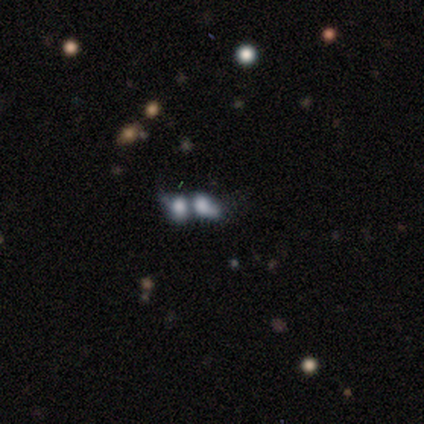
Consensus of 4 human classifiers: A smooth galaxy with no disk features (50%, tied with featured or disk) that is in between round and cigar-shaped (100%).

Vote fractions:
- Smooth or featured? smooth: 50% (tied) / featured or disk: 50% (tied) / star or artifact: 0%
- How rounded? in between: 100% / round: 0% / cigar-shaped: 0%
- Merging? merger: 75% / minor disturbance: 25% / none: 0% / major disturbance: 0%